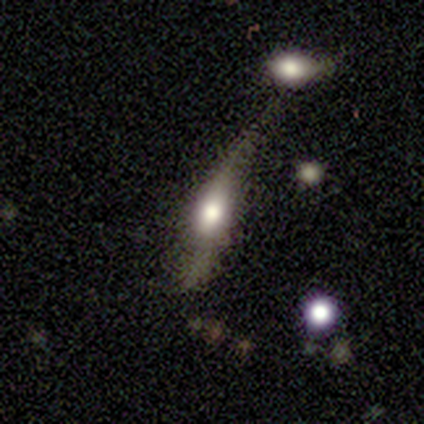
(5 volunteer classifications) Volunteers were most divided on "merging" (2-way tie): none: 40%, major disturbance: 40%, merger: 20%, minor disturbance: 0%. More confident: bar — no (100%); spiral arms — no (100%); bulge size — large (100%); edge-on disk — no (67%); smooth or featured — featured or disk (60%).